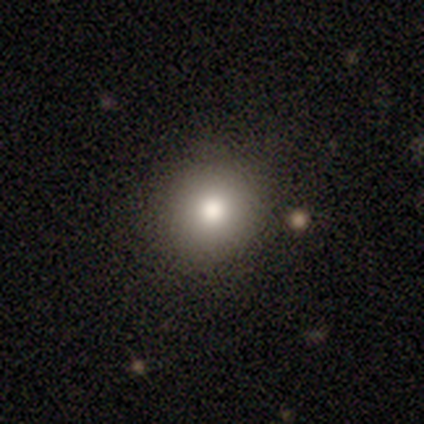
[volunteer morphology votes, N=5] Smooth or featured? smooth (100%)
How rounded? round (60%)
Merging? none (80%)